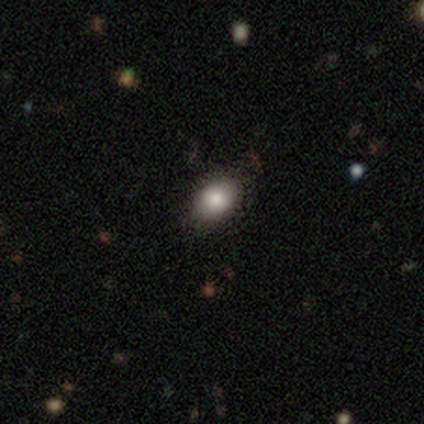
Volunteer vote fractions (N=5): smooth-or-featured: smooth: 100% | featured or disk: 0% | star or artifact: 0%
  how-rounded: in between: 80% | round: 20% | cigar-shaped: 0%
  merging: none: 80% | minor disturbance: 20% | major disturbance: 0% | merger: 0%